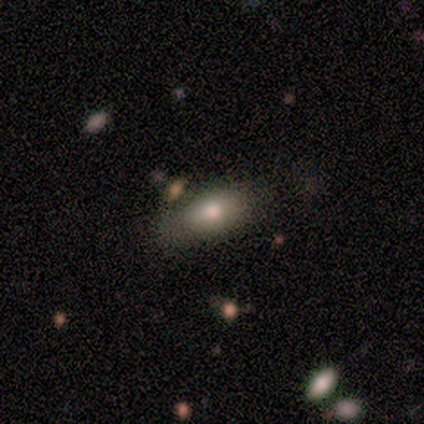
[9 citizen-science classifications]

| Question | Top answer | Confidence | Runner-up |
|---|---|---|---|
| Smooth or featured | smooth | 89% | featured or disk (11%) |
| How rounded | in between | 100% | — |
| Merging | none | 67% | minor disturbance (22%) |